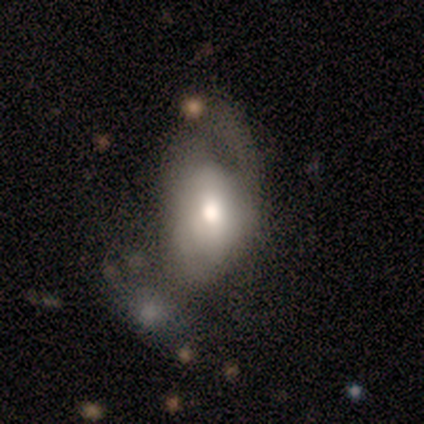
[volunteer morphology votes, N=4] Smooth or featured? smooth (75%)
How rounded? in between (100%)
Merging? major disturbance (100%)